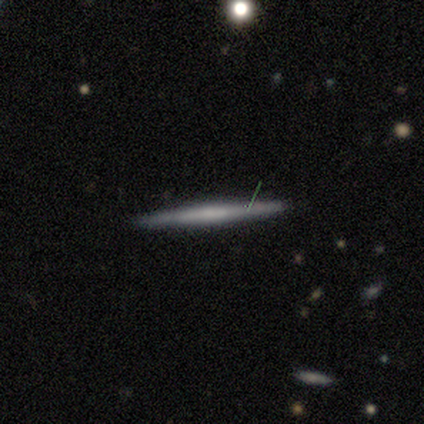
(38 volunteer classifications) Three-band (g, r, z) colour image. It shows a smooth galaxy with no disk features (50%) that is cigar-shaped (100%). Merging: none (92%).